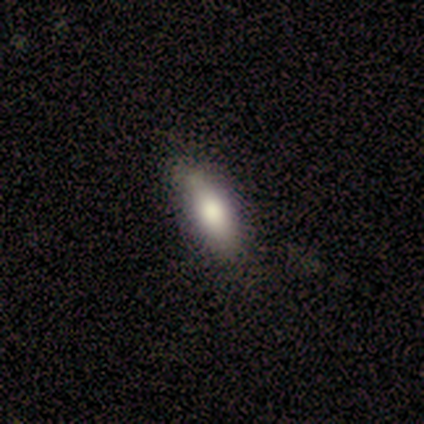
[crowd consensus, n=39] This is clearly a smooth galaxy (85%). How rounded: likely in between (79%). Merging: likely none (71%).